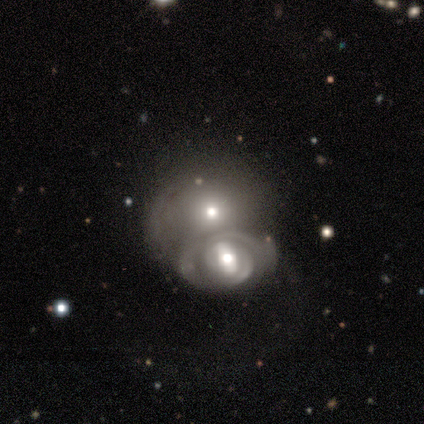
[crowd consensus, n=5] smooth 60%, featured or disk 40%, star or artifact 0%. Down the decision tree: how rounded — round (67%); merging — merger (80%).